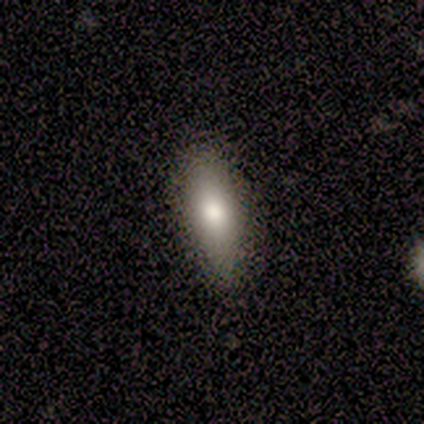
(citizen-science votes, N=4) Morphology: type=smooth (75%); roundness=in between (67%); merging=none (75%).